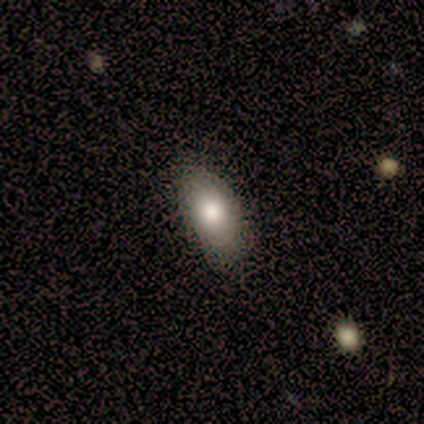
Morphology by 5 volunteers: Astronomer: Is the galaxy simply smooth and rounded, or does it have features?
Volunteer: smooth — 60% (runner-up: featured or disk, 40%).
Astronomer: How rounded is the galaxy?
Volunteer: in between — 67%.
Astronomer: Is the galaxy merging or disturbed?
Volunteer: none — 80%.